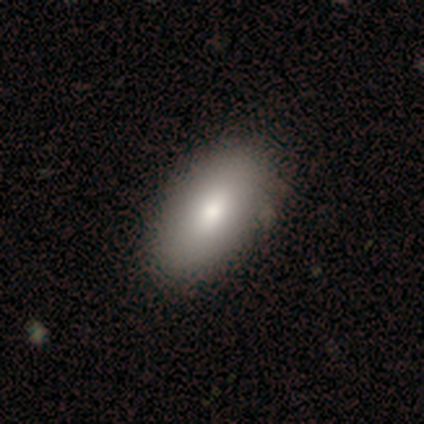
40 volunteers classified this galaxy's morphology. Smooth or featured: smooth — 72% (featured or disk — 25%)
How rounded: in between — 93% (round — 7%)
Merging: none — 74% (merger — 5%)